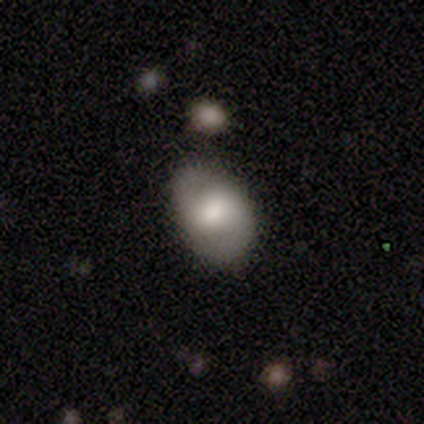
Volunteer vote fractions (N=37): smooth 49% (tied), featured or disk 49% (tied), star or artifact 3%. Down the decision tree: how rounded — in between (94%); merging — none (67%).